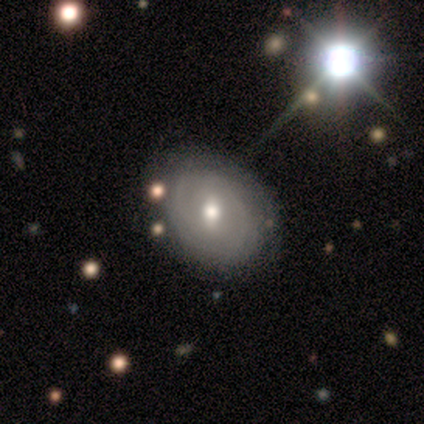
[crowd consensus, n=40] Q: Smooth or featured?
A: featured or disk (57%); runner-up: smooth (32%)
Q: Edge-on disk?
A: no (91%); runner-up: yes (9%)
Q: Bar?
A: weak (81%); runner-up: no (14%)
Q: Spiral arms?
A: yes (57%); runner-up: no (43%)
Q: Spiral winding?
A: tight (83%); runner-up: medium (8%)
Q: Spiral arm count?
A: 2 (42%); runner-up: can't tell (33%)
Q: Bulge size?
A: moderate (90%); runner-up: small (10%)
Q: Merging?
A: none (64%); runner-up: minor disturbance (19%)